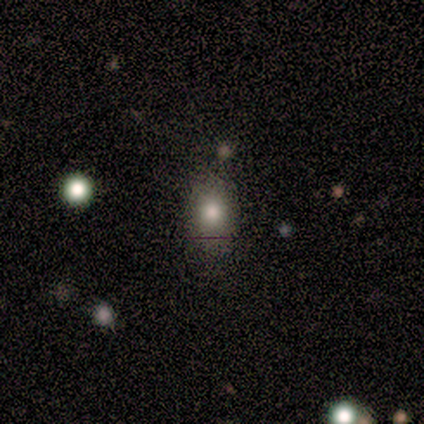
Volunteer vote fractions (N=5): Volunteers were most divided on "how rounded": in between: 75%, round: 25%, cigar-shaped: 0%. More confident: smooth or featured — smooth (80%); merging — minor disturbance (80%).